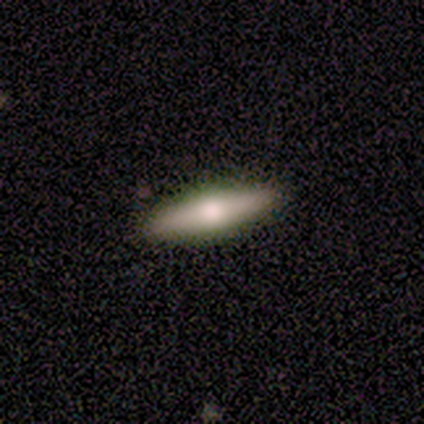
This is possibly a smooth galaxy (55%). How rounded: likely cigar-shaped (68%). Merging: clearly none (92%).